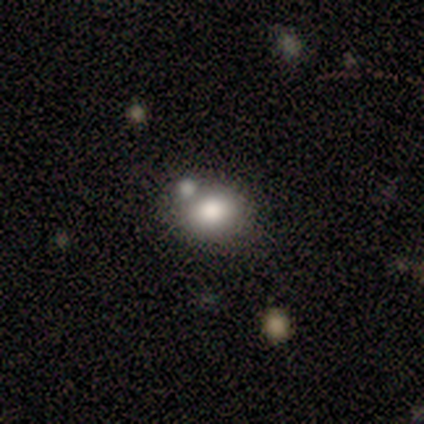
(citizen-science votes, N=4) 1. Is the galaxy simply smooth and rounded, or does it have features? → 75% smooth, 25% featured or disk, 0% star or artifact.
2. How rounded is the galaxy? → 67% round, 33% in between, 0% cigar-shaped.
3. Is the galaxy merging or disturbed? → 50% none (tied), 50% merger (tied), 0% minor disturbance, 0% major disturbance.